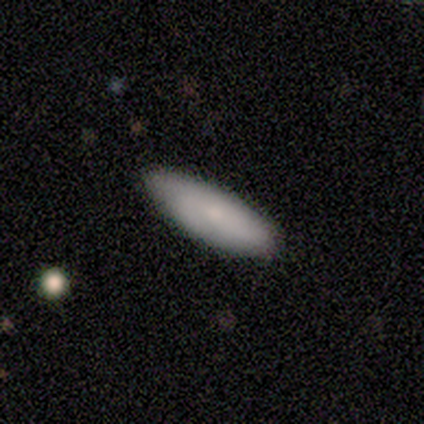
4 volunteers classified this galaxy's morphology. smooth-or-featured: smooth: 50% | featured or disk: 25% | star or artifact: 25%
  how-rounded: in between: 50% (tied) | cigar-shaped: 50% (tied) | round: 0%
  merging: none: 100% | minor disturbance: 0% | major disturbance: 0% | merger: 0%